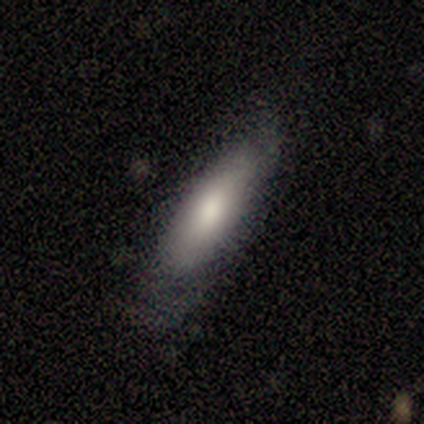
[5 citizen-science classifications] This appears to be a smooth galaxy with no disk features (100%) that is in between round and cigar-shaped (60%). Merging: none (80%).